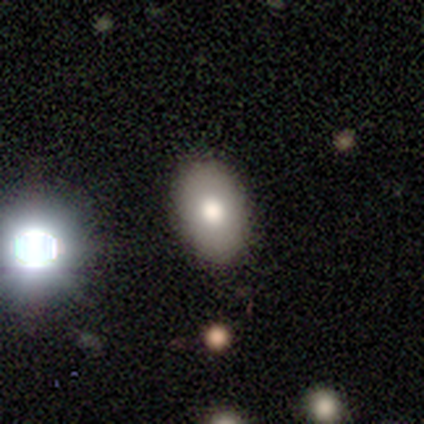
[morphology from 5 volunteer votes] Smooth or featured? 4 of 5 (80%) said smooth. How rounded? 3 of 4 (75%) said in between. Merging? 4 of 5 (80%) said none.